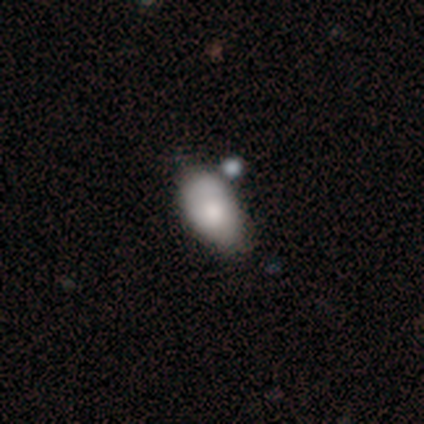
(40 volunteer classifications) Morphology: type=smooth (72%); roundness=in between (97%); merging=none (50%).